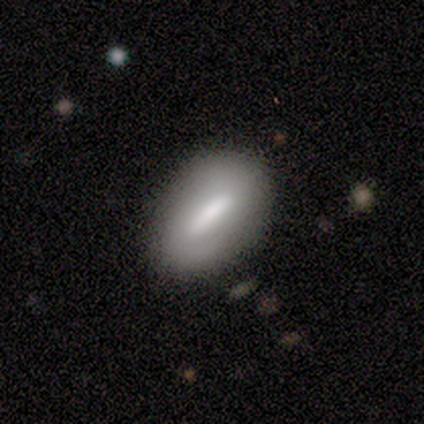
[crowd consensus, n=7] Smooth or featured? smooth (71%)
How rounded? in between (60%)
Merging? none (86%)